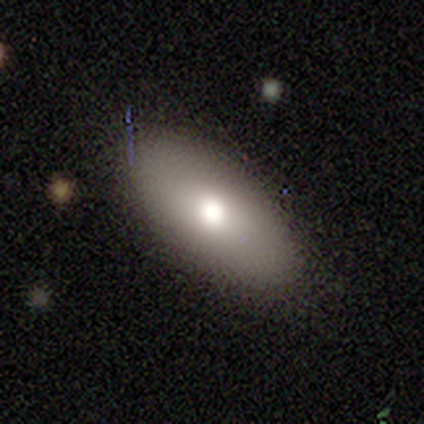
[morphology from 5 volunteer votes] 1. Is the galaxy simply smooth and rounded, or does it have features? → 60% smooth, 40% star or artifact, 0% featured or disk.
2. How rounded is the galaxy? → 67% in between, 33% cigar-shaped, 0% round.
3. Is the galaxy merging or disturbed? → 100% none, 0% minor disturbance, 0% major disturbance, 0% merger.